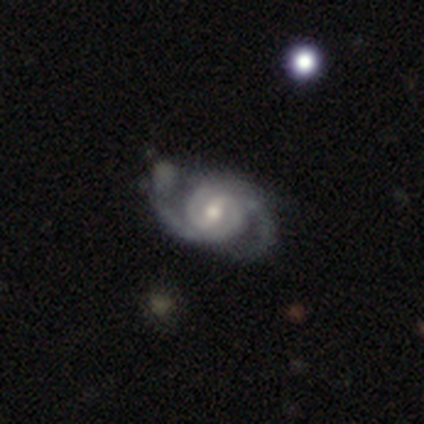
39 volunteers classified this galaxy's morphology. Volunteers were most divided on "spiral winding": medium: 57%, tight: 38%, loose: 5%. Remaining: spiral arms — yes (100%); smooth or featured — featured or disk (97%); edge-on disk — no (97%); spiral arm count — 2 (78%); bulge size — moderate (73%); bar — weak (68%); merging — none (39%).